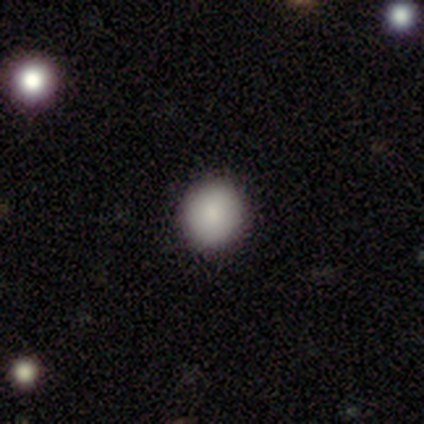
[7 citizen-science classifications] Q: Smooth or featured?
A: smooth (86%); runner-up: featured or disk (14%)
Q: How rounded?
A: round (67%); runner-up: in between (33%)
Q: Merging?
A: none (86%); runner-up: minor disturbance (14%)